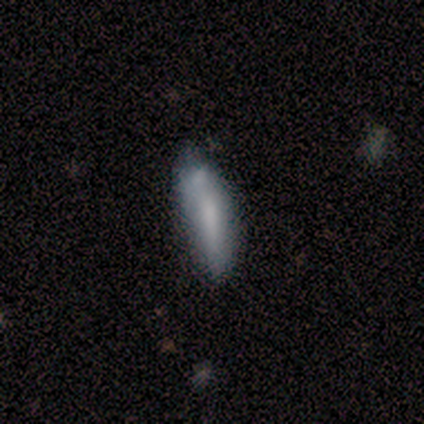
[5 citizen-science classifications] Morphology: type=smooth (60%); roundness=cigar-shaped (100%); merging=none (80%).